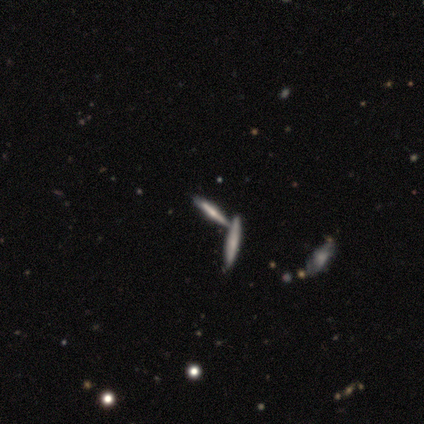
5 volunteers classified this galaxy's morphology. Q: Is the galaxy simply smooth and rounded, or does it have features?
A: smooth — 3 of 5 (60%).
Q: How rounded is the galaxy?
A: cigar-shaped — 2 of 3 (67%).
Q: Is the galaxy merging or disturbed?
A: none — 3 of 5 (60%).